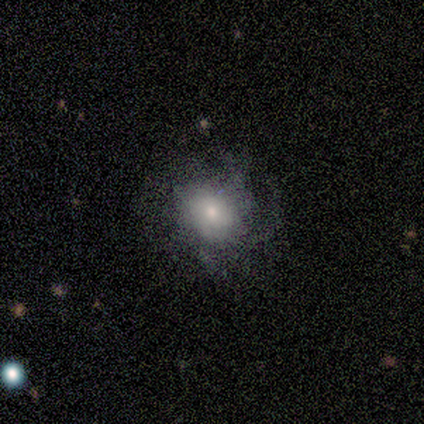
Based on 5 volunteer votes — This appears to be a smooth galaxy with no disk features (40%, tied with star or artifact) that is round (100%). Merging: none (100%).